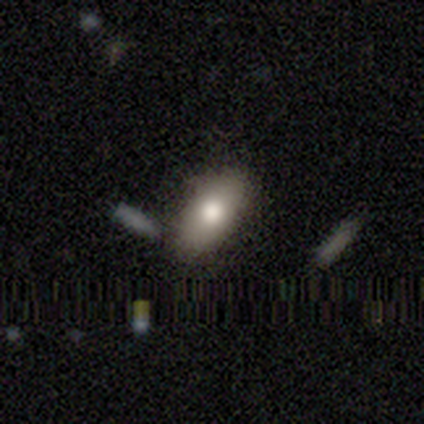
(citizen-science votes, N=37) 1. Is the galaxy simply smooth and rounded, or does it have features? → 73% smooth, 16% featured or disk, 11% star or artifact.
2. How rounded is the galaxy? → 89% in between, 7% round, 4% cigar-shaped.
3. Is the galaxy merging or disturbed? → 82% none, 9% merger, 6% minor disturbance, 3% major disturbance.